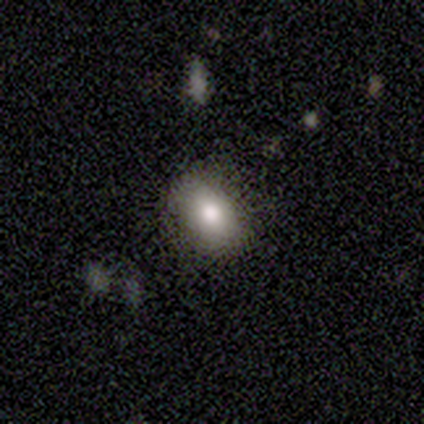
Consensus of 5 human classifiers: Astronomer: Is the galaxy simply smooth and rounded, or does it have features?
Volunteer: smooth — 60% (runner-up: featured or disk, 40%).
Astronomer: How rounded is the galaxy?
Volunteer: in between — 100%.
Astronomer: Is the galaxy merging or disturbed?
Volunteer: none — 100%.